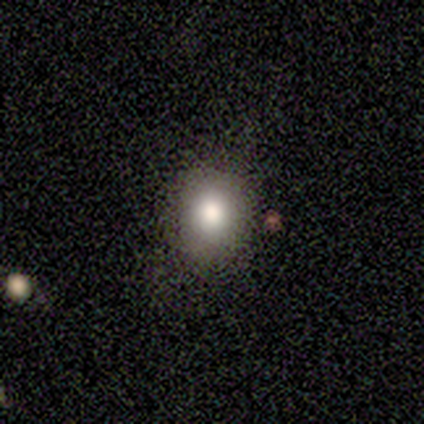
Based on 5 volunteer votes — Smooth or featured? smooth (80%)
How rounded? round (75%)
Merging? none (80%)